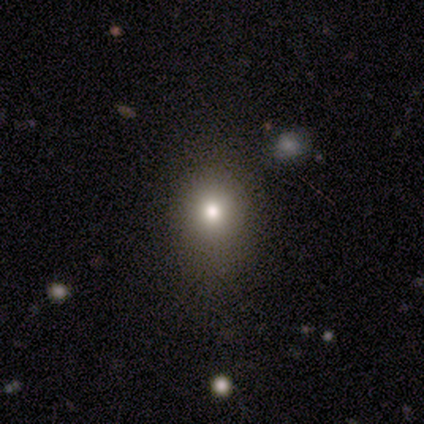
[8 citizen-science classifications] smooth-or-featured: smooth: 75% | star or artifact: 25% | featured or disk: 0%
  how-rounded: round: 83% | in between: 17% | cigar-shaped: 0%
  merging: none: 100% | minor disturbance: 0% | major disturbance: 0% | merger: 0%